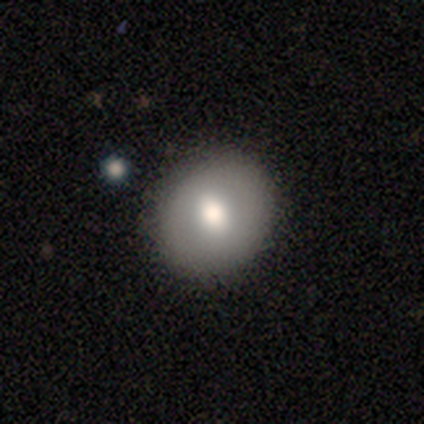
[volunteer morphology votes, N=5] Smooth or featured: smooth — 80% (featured or disk — 20%)
How rounded: in between — 75% (round — 25%)
Merging: none — 60% (minor disturbance — 20%)